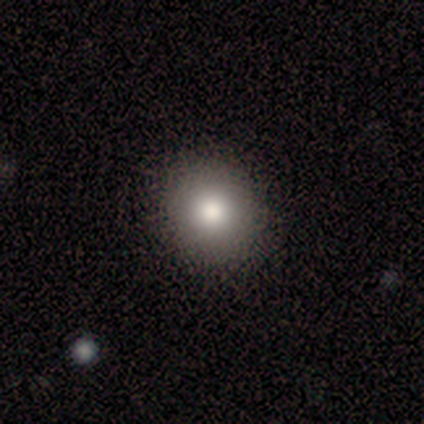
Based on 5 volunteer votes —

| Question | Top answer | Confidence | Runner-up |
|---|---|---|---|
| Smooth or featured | smooth | 80% | featured or disk (20%) |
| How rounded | round | 100% | — |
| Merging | none | 100% | — |